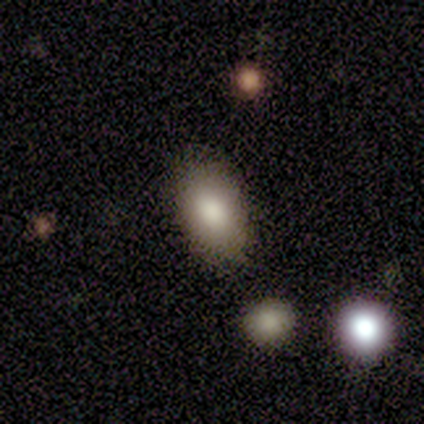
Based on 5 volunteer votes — Smooth or featured?
  - smooth: 80% *
  - featured or disk: 20%
  - star or artifact: 0%
How rounded?
  - in between: 75% *
  - round: 25%
  - cigar-shaped: 0%
Merging?
  - none: 80% *
  - merger: 20%
  - minor disturbance: 0%
  - major disturbance: 0%